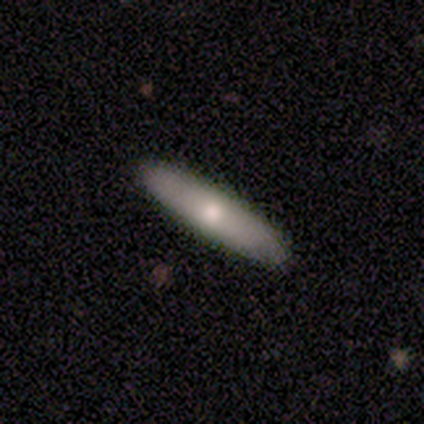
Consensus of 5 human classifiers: Smooth or featured?
  - smooth: 60% *
  - featured or disk: 40%
  - star or artifact: 0%
How rounded?
  - cigar-shaped: 100% *
  - round: 0%
  - in between: 0%
Merging?
  - none: 100% *
  - minor disturbance: 0%
  - major disturbance: 0%
  - merger: 0%